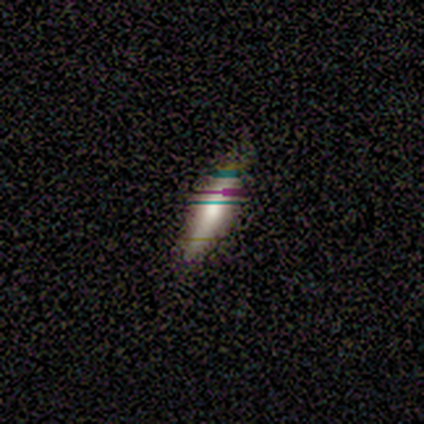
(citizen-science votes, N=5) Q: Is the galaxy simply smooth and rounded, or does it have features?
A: featured or disk — 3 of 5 (60%).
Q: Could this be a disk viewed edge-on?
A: yes — 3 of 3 (100%).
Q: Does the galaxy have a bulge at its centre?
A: rounded — 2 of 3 (67%).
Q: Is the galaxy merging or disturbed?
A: none — 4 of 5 (80%).